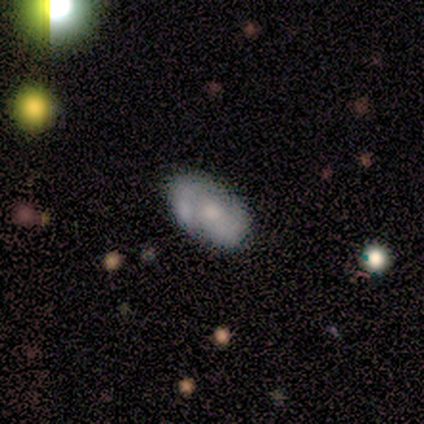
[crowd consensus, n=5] Volunteers were most divided on "spiral winding" (2-way tie): tight: 50%, medium: 50%, loose: 0%. More confident: edge-on disk — no (100%); spiral arm count — 2 (100%); merging — none (80%); bar — no (67%); spiral arms — yes (67%); bulge size — small (67%); smooth or featured — featured or disk (60%).